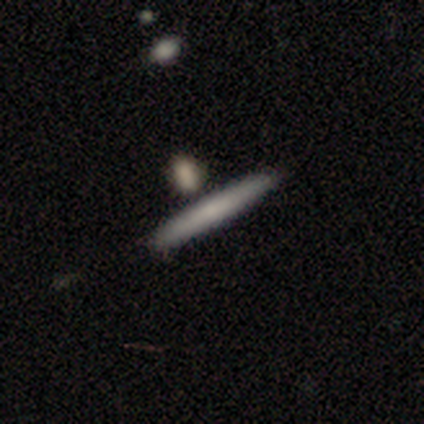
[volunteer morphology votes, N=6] Q: Smooth or featured?
A: smooth (50%); runner-up: featured or disk (33%)
Q: How rounded?
A: cigar-shaped (100%)
Q: Merging?
A: none (80%); runner-up: merger (20%)